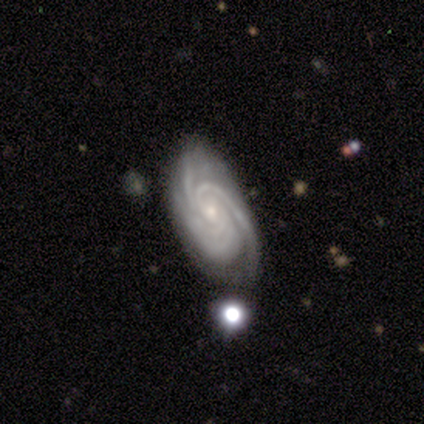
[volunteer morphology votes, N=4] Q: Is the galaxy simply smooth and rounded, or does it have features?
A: featured or disk — 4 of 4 (100%).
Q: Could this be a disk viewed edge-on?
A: no — 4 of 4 (100%).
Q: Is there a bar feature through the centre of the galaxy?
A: no — 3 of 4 (75%).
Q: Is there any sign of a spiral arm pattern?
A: yes — 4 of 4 (100%).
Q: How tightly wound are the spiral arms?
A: tight — 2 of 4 (50%).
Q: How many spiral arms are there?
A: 3 — 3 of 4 (75%).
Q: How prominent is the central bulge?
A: small — 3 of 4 (75%).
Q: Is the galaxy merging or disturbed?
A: none — 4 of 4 (100%).